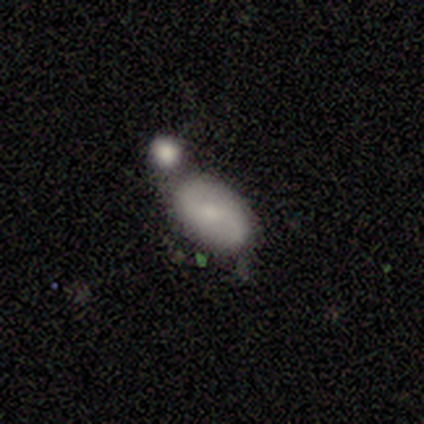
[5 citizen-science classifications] This is clearly a smooth galaxy (80%). How rounded: likely in between (75%). Merging: likely merger (60%).